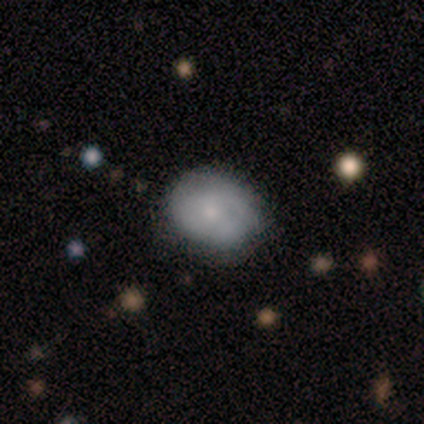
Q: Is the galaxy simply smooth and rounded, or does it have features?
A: smooth — 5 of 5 (100%).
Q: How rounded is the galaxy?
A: in between — 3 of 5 (60%).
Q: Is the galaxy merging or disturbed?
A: minor disturbance — 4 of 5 (80%).